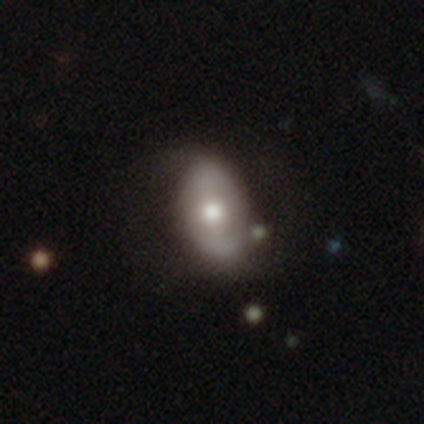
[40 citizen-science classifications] A featured or disk galaxy (48%) with no bar (53%), no spiral arms (79%) and a moderate central bulge (58%). Merging: none (67%).